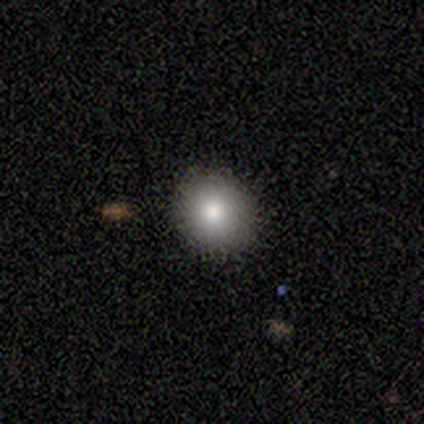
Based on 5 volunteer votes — smooth_or_featured: smooth (p=1.00)
how_rounded: round (p=1.00)
merging: none (p=1.00)